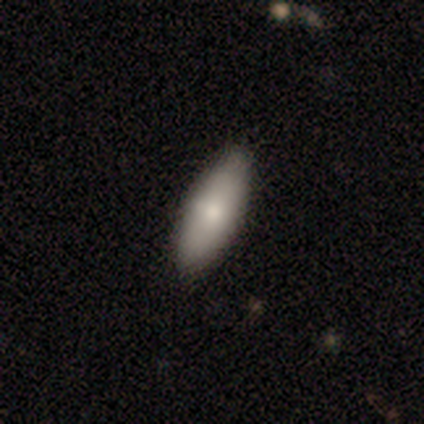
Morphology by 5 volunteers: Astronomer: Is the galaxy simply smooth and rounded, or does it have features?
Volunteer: smooth — 100%.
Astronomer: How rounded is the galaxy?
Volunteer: in between — 60% (runner-up: cigar-shaped, 40%).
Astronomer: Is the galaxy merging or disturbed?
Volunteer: none — 60%.